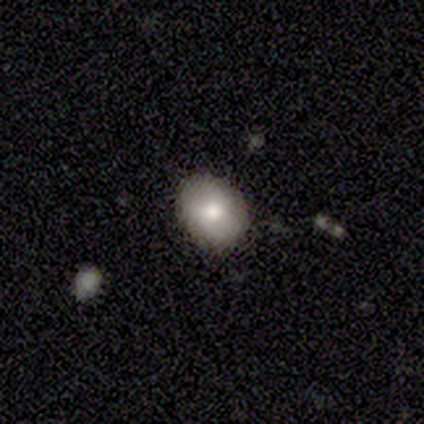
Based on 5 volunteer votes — This is likely a smooth galaxy (60%). How rounded: likely round (67%). Merging: possibly none (50%, tied with minor disturbance).